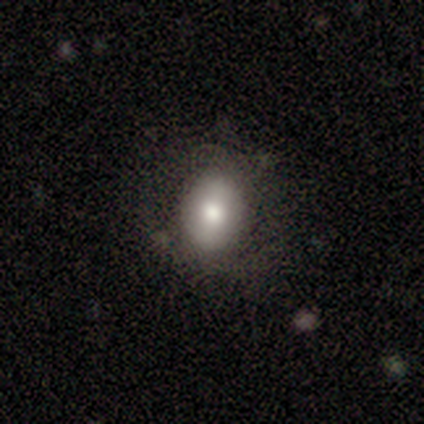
A smooth galaxy with no disk features (74%) that is in between round and cigar-shaped (72%). Merging: none (76%).